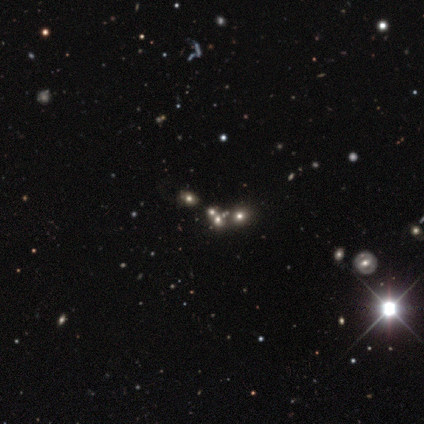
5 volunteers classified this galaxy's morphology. A star or artifact, not a galaxy (60%).